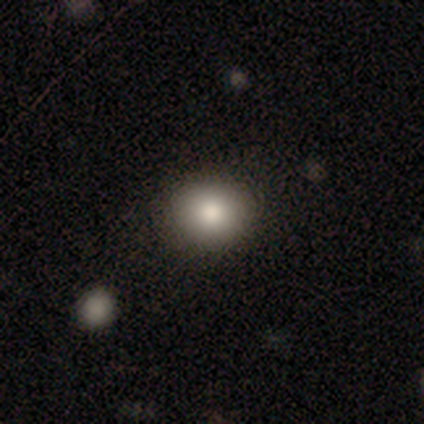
Smooth or featured? 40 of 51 (78%) said smooth. How rounded? 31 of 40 (78%) said round. Merging? 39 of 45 (87%) said none.